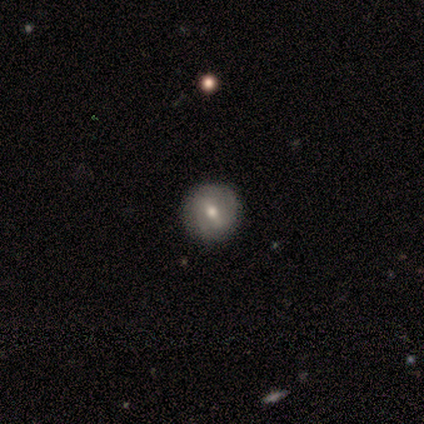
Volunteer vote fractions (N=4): Smooth or featured: featured or disk — 75% (smooth — 25%)
Edge-on disk: no — 100%
Bar: weak — 67% (strong — 33%)
Spiral arms: no — 100%
Bulge size: moderate — 100%
Merging: none — 100%